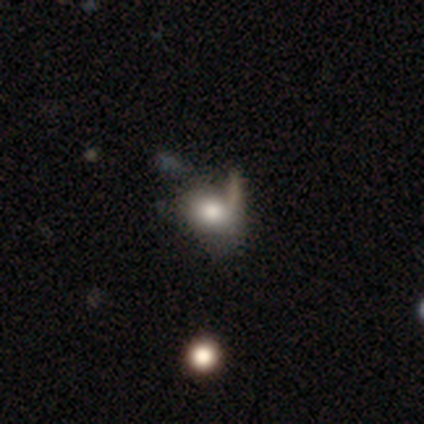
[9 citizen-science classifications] Q: Smooth or featured?
A: smooth (89%); runner-up: featured or disk (11%)
Q: How rounded?
A: round (62%); runner-up: in between (38%)
Q: Merging?
A: none (56%); runner-up: major disturbance (33%)